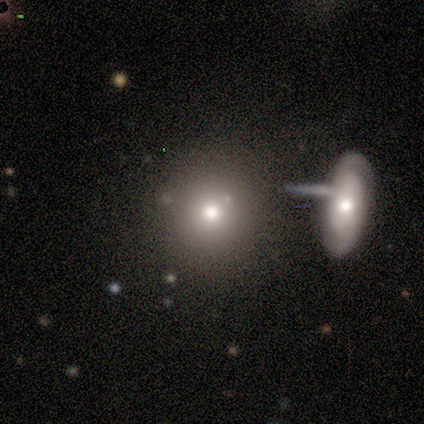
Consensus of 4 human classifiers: Smooth or featured? 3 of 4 (75%) said smooth. How rounded? 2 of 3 (67%) said in between. Merging? 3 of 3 (100%) said none.